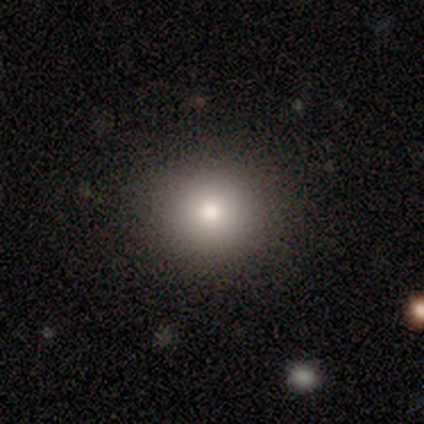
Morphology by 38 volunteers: This appears to be a smooth galaxy with no disk features (79%) that is round (90%). Merging: none (100%).